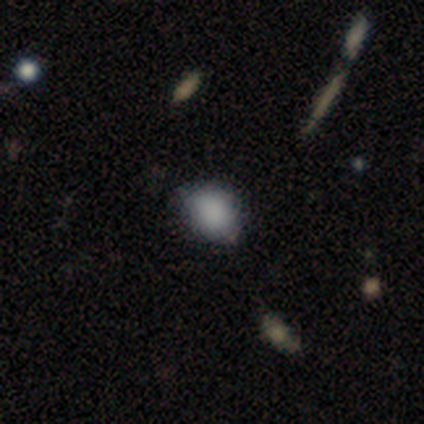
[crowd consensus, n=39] Smooth or featured?
  - smooth: 85% *
  - star or artifact: 13%
  - featured or disk: 3%
How rounded?
  - in between: 67% *
  - round: 33%
  - cigar-shaped: 0%
Merging?
  - none: 74% *
  - minor disturbance: 24%
  - major disturbance: 3%
  - merger: 0%